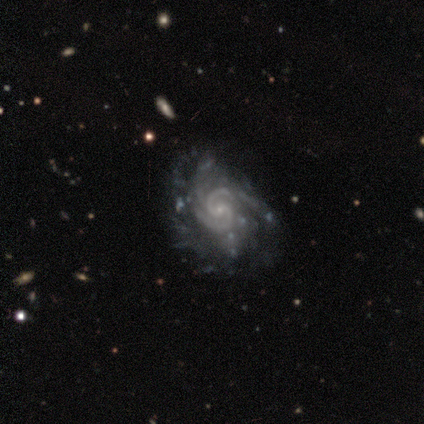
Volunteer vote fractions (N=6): This appears to be a featured or disk galaxy (100%) with no bar (67%), 2 (83%) tight (50%) spiral arms (100%) and a small central bulge (100%). Merging: none (50%).